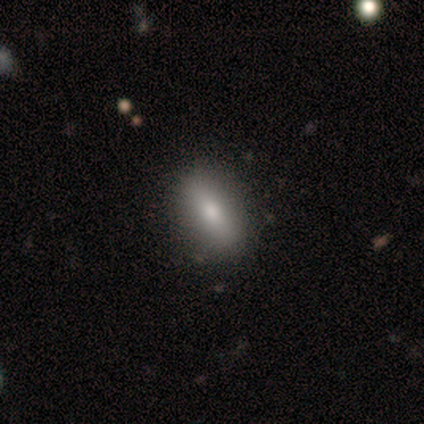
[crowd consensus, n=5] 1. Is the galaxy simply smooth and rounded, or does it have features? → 80% smooth, 20% featured or disk, 0% star or artifact.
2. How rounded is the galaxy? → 100% in between, 0% round, 0% cigar-shaped.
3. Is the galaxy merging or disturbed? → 60% none, 20% minor disturbance, 20% merger, 0% major disturbance.